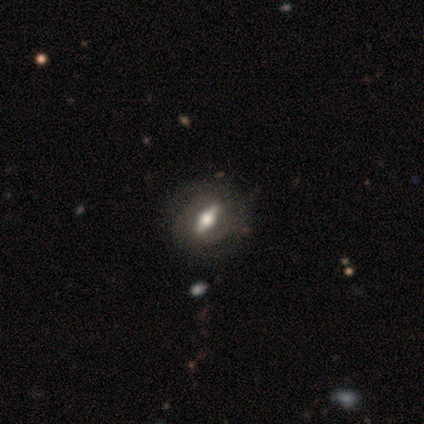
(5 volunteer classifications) Morphology: type=featured or disk (80%); edge-on=yes (100%); edge-on bulge=rounded (100%); merging=none (100%).